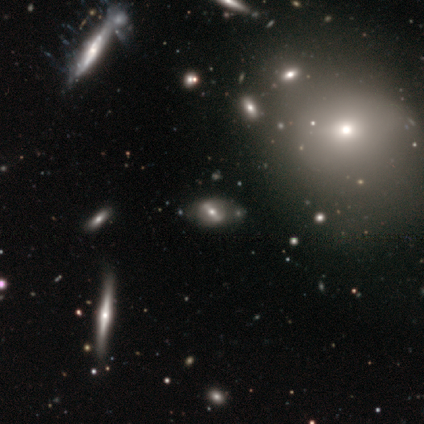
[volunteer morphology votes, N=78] Smooth or featured: featured or disk — 62% (smooth — 27%)
Edge-on disk: no — 81% (yes — 19%)
Bar: strong — 67% (weak — 21%)
Spiral arms: no — 67% (yes — 33%)
Bulge size: moderate — 62% (small — 23%)
Merging: none — 32% (merger — 14%)